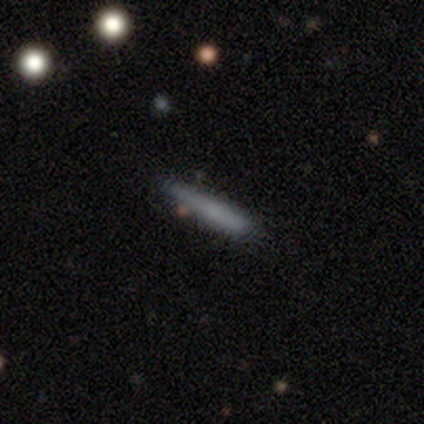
smooth 75%, featured or disk 25%, star or artifact 0%. Down the decision tree: how rounded — cigar-shaped (100%); merging — none (75%).